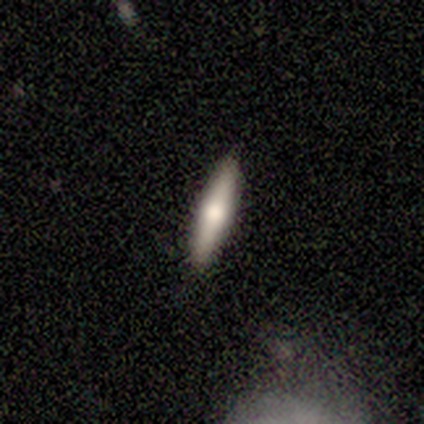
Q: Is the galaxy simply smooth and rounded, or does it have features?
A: smooth — 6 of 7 (86%).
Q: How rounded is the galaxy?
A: cigar-shaped — 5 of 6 (83%).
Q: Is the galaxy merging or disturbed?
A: none — 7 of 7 (100%).